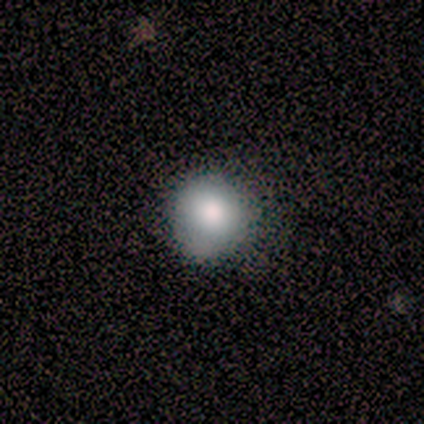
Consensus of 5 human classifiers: Smooth or featured?
  - smooth: 100% *
  - featured or disk: 0%
  - star or artifact: 0%
How rounded?
  - round: 100% *
  - in between: 0%
  - cigar-shaped: 0%
Merging?
  - none: 80% *
  - major disturbance: 20%
  - minor disturbance: 0%
  - merger: 0%